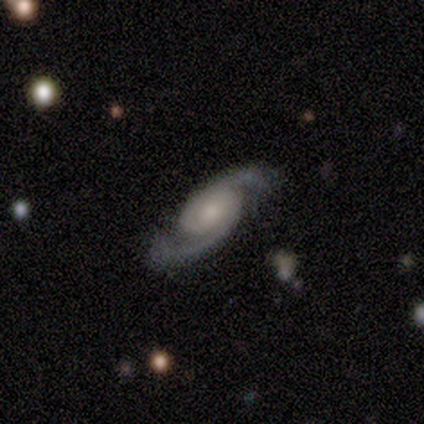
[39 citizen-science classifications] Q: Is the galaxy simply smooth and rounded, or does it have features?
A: featured or disk — 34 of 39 (87%).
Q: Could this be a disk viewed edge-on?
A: no — 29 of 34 (85%).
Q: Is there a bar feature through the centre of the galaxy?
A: no — 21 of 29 (72%).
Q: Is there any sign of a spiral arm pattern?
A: yes — 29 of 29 (100%).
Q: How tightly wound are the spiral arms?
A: medium — 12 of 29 (41%).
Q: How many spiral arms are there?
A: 2 — 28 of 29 (97%).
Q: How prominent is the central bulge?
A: moderate — 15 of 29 (52%).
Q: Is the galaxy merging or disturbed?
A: none — 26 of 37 (70%).